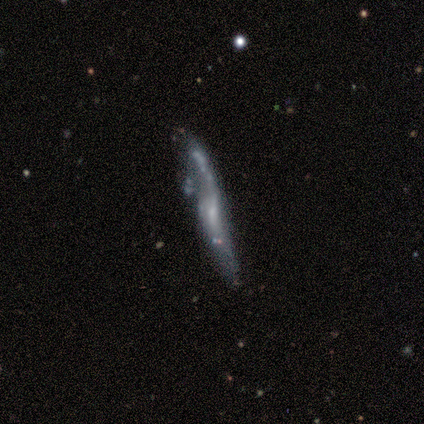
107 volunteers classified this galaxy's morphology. type=featured or disk (72%); edge-on=no (53%); bar=weak (41%, tied with no); spiral arms=yes (66%); winding=loose (85%); arm count=2 (78%); bulge=small (63%); merging=none (34%).